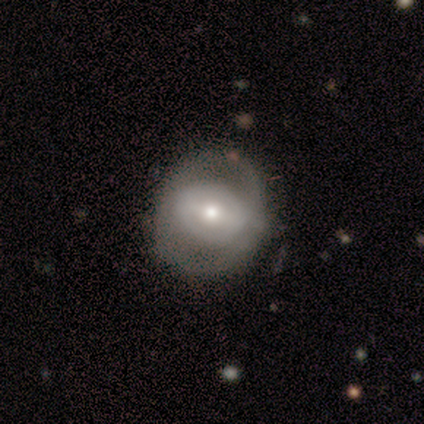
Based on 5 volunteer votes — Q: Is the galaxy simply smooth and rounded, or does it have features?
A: smooth — 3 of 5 (60%).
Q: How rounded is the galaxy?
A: round — 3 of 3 (100%).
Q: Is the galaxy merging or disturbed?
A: none — 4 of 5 (80%).